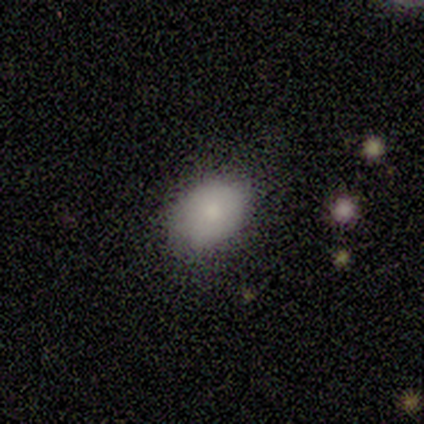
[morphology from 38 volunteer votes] Smooth or featured? 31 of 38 (82%) said smooth. How rounded? 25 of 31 (81%) said in between. Merging? 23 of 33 (70%) said none.